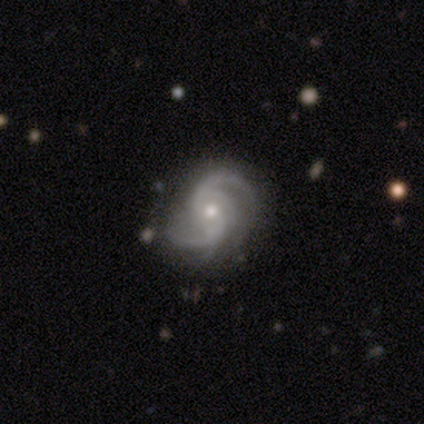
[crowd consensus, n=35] Smooth or featured? 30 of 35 (86%) said featured or disk. Edge-on disk? 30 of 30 (100%) said no. Bar? 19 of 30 (63%) said no. Spiral arms? 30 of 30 (100%) said yes. Spiral winding? 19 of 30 (63%) said medium. Spiral arm count? 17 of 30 (57%) said 2. Bulge size? 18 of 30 (60%) said small. Merging? 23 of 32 (72%) said none.